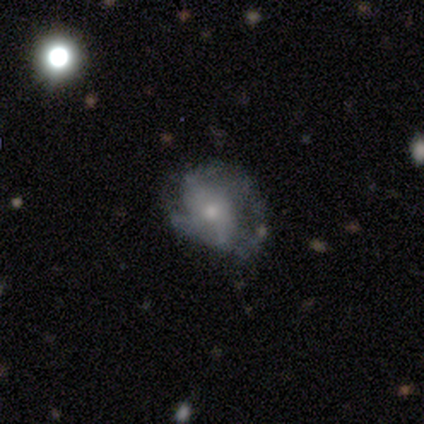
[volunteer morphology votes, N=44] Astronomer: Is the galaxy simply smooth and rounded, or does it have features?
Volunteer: featured or disk — 55% (runner-up: smooth, 39%).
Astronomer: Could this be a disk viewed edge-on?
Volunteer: no — 100%.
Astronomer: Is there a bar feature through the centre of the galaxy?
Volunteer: no — 67%.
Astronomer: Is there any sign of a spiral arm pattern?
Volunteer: yes — 62%.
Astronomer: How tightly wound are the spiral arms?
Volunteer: tight — 40%, tied with medium at 40%.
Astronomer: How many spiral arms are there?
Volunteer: can't tell — 40% (runner-up: 2, 33%).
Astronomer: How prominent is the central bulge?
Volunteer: small — 50% (runner-up: moderate, 46%).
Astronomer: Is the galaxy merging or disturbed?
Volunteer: major disturbance — 49% (runner-up: minor disturbance, 32%).